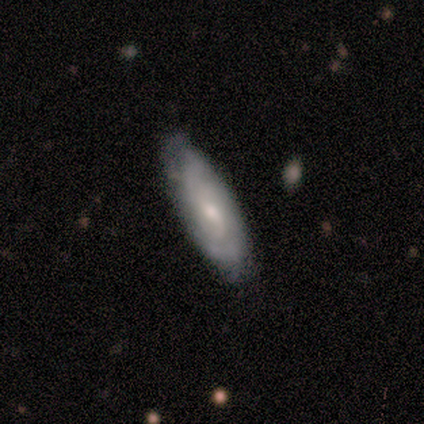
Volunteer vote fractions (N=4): smooth 50% (tied), featured or disk 50% (tied), star or artifact 0%. Down the decision tree: how rounded — in between (100%); merging — none (75%).